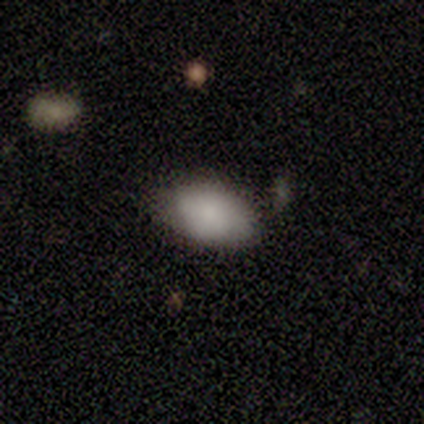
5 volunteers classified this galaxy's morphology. Smooth or featured? smooth (100%)
How rounded? in between (80%)
Merging? none (60%)